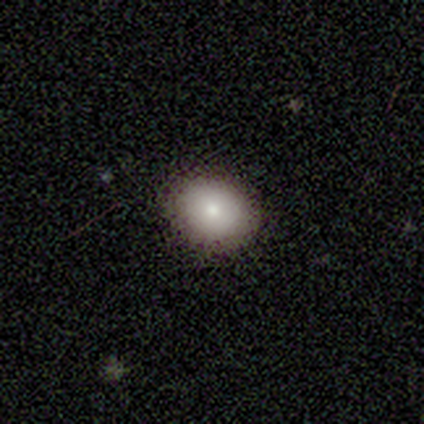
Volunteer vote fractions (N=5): Volunteers were most divided on "merging": none: 60%, minor disturbance: 40%, major disturbance: 0%, merger: 0%. More confident: smooth or featured — smooth (80%); how rounded — round (75%).